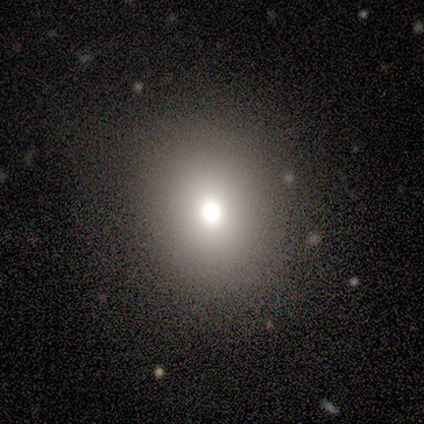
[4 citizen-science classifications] Overall: smooth (100%). How rounded: round (75%). Merging: none (75%).